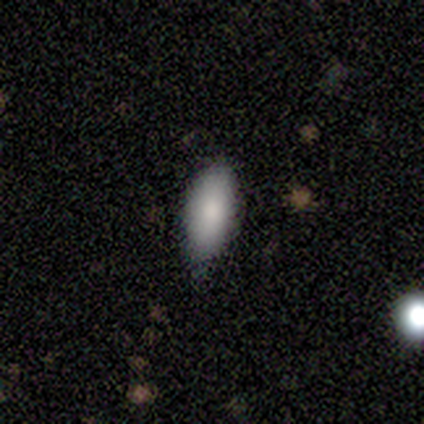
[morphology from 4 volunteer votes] smooth-or-featured: smooth: 75% | featured or disk: 25% | star or artifact: 0%
  how-rounded: in between: 100% | round: 0% | cigar-shaped: 0%
  merging: none: 75% | minor disturbance: 25% | major disturbance: 0% | merger: 0%